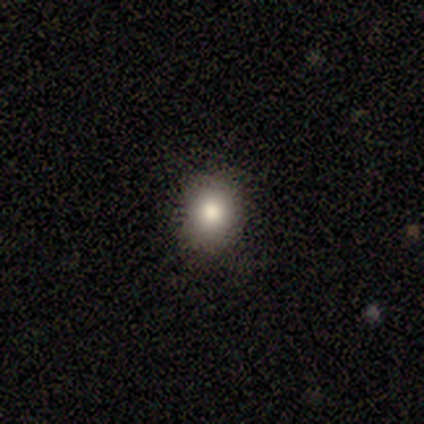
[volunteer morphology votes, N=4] Volunteers were most divided on "smooth or featured": smooth: 75%, featured or disk: 25%, star or artifact: 0%. More confident: how rounded — round (100%); merging — none (75%).